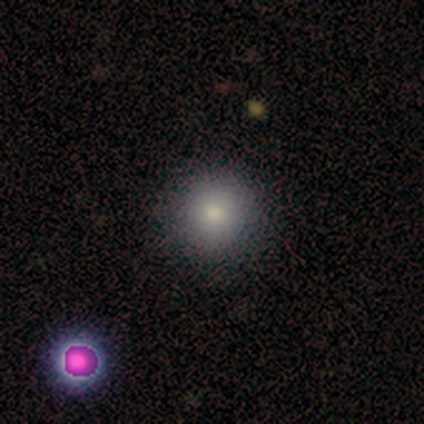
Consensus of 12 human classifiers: A smooth galaxy with no disk features (92%) that is round (100%). Merging: none (91%).